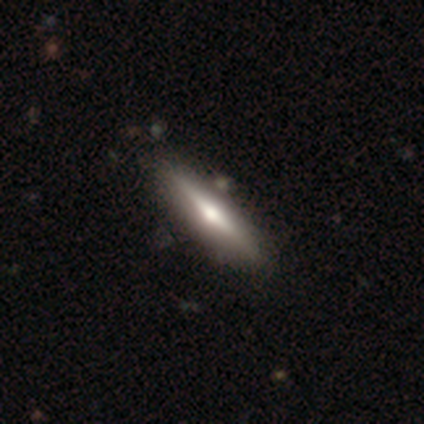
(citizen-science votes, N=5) Overall: featured or disk (100%). Edge-on disk: yes (100%). Edge-on bulge: rounded (80%). Merging: none (100%).